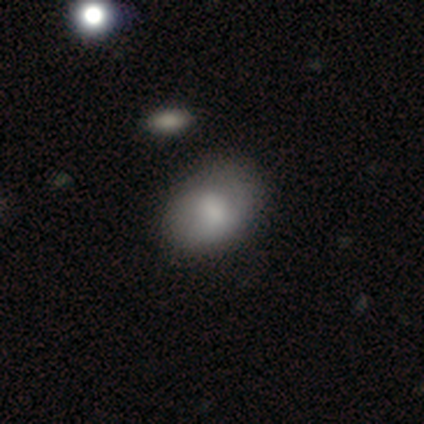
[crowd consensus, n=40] Q: Smooth or featured?
A: smooth (72%); runner-up: featured or disk (28%)
Q: How rounded?
A: in between (76%); runner-up: round (24%)
Q: Merging?
A: none (42%); runner-up: minor disturbance (20%)